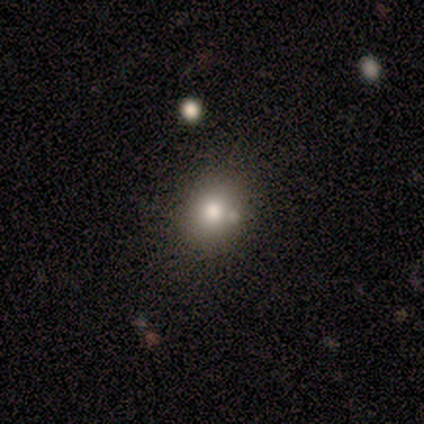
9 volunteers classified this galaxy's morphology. Overall: smooth (67%). How rounded: round (83%). Merging: none (57%; merger 29%).